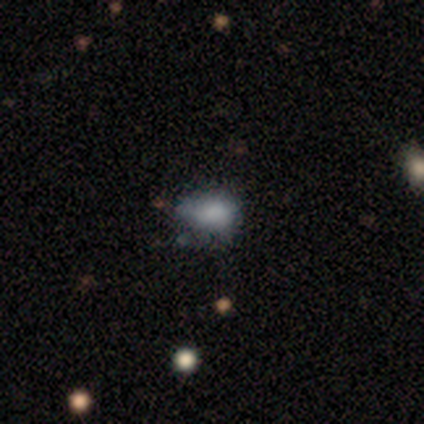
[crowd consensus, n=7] Smooth or featured?
  - smooth: 71% *
  - featured or disk: 14%
  - star or artifact: 14%
How rounded?
  - in between: 100% *
  - round: 0%
  - cigar-shaped: 0%
Merging?
  - minor disturbance: 50% *
  - none: 33%
  - major disturbance: 17%
  - merger: 0%